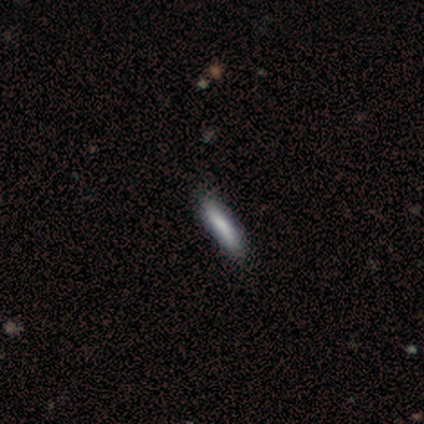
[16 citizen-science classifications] Smooth or featured? 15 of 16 (94%) said smooth. How rounded? 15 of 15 (100%) said cigar-shaped. Merging? 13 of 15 (87%) said none.